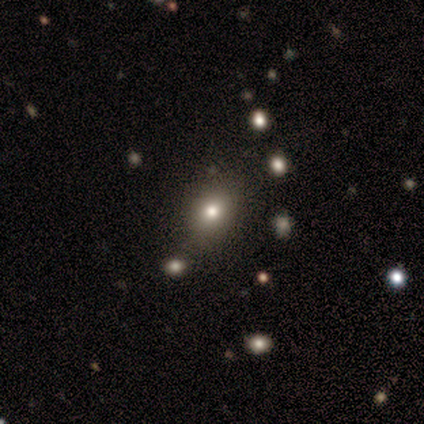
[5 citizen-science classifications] Overall: star or artifact (60%; smooth 40%).